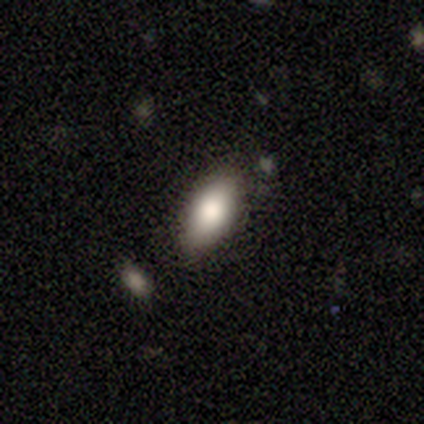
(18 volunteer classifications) Smooth or featured?
  - smooth: 72% *
  - featured or disk: 22%
  - star or artifact: 6%
How rounded?
  - in between: 92% *
  - cigar-shaped: 8%
  - round: 0%
Merging?
  - none: 76% *
  - minor disturbance: 24%
  - major disturbance: 0%
  - merger: 0%